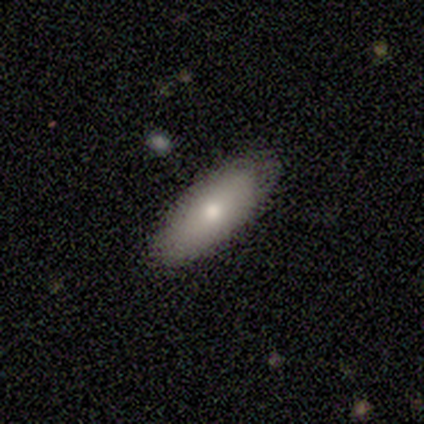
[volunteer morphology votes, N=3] Smooth or featured?
  - smooth: 67% *
  - featured or disk: 33%
  - star or artifact: 0%
How rounded?
  - round: 50% * (tied)
  - in between: 50% * (tied)
  - cigar-shaped: 0%
Merging?
  - none: 100% *
  - minor disturbance: 0%
  - major disturbance: 0%
  - merger: 0%